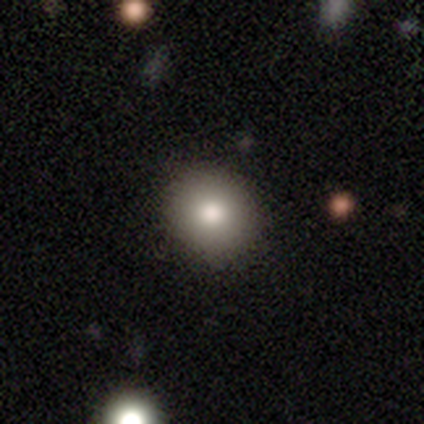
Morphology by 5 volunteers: Smooth or featured: smooth — 60% (featured or disk — 20%)
How rounded: round — 100%
Merging: none — 100%